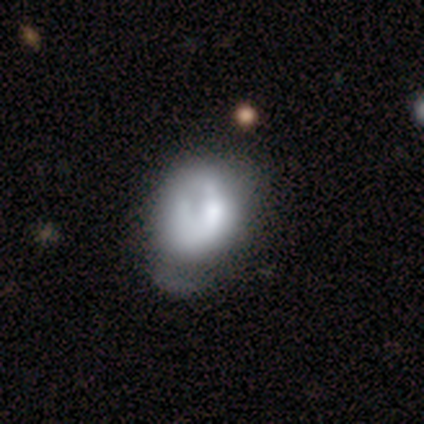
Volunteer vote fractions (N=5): Q: Smooth or featured?
A: smooth (80%); runner-up: featured or disk (20%)
Q: How rounded?
A: in between (100%)
Q: Merging?
A: major disturbance (60%); runner-up: none (20%)